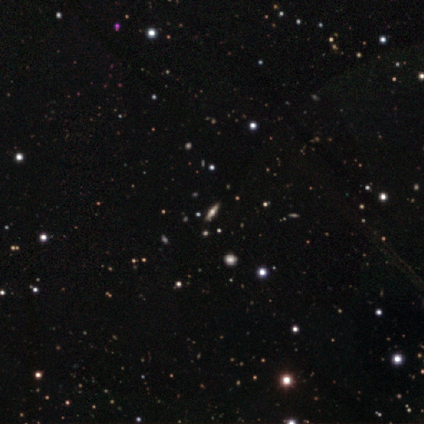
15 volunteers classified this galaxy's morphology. Volunteers were most divided on "smooth or featured": featured or disk: 73%, star or artifact: 20%, smooth: 7%. More confident: edge-on bulge — rounded (100%); merging — none (83%); edge-on disk — yes (82%).